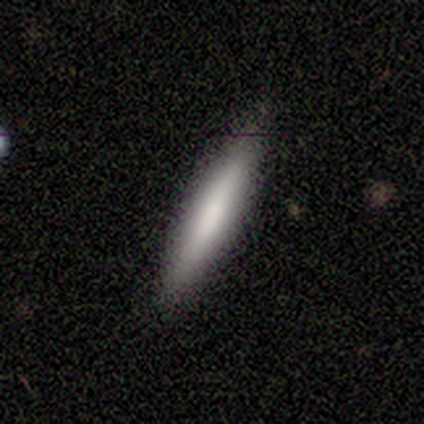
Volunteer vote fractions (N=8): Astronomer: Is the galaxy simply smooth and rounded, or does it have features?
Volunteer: smooth — 62%.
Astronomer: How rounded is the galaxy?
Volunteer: cigar-shaped — 80%.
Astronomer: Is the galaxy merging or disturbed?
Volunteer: none — 100%.